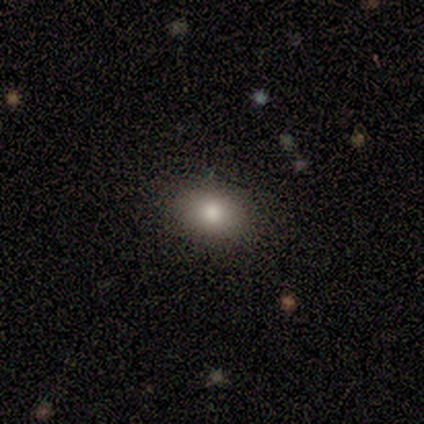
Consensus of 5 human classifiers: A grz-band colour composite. It shows a smooth galaxy with no disk features (60%) that is in between round and cigar-shaped (100%). Merging: none (100%).